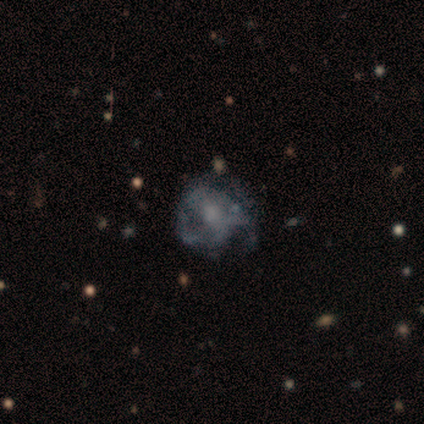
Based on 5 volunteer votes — A featured or disk galaxy (60%) with no bar (67%), 3 (50%, tied with can't tell) tight (50%, tied with medium) spiral arms (67%) and a moderate central bulge (33%, tied with small and none).

Vote fractions:
- Smooth or featured? featured or disk: 60% / smooth: 40% / star or artifact: 0%
- Edge-on disk? no: 100% / yes: 0%
- Bar? no: 67% / weak: 33% / strong: 0%
- Spiral arms? yes: 67% / no: 33%
- Spiral winding? tight: 50% (tied) / medium: 50% (tied) / loose: 0%
- Spiral arm count? 3: 50% (tied) / can't tell: 50% (tied) / 1: 0% / 2: 0% / 4: 0% / more than 4: 0%
- Bulge size? moderate: 33% (tied) / small: 33% (tied) / none: 33% (tied) / dominant: 0% / large: 0%
- Merging? none: 60% / minor disturbance: 20% / major disturbance: 20% / merger: 0%